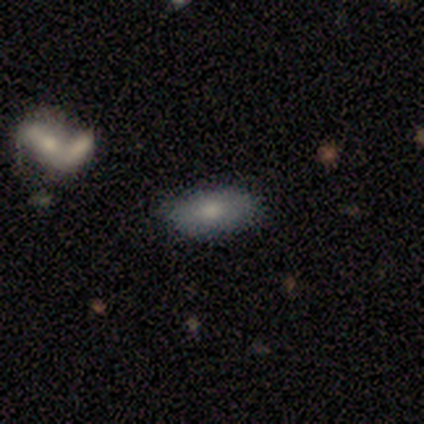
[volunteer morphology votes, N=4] Overall: smooth (75%). How rounded: in between (100%). Merging: none (100%).